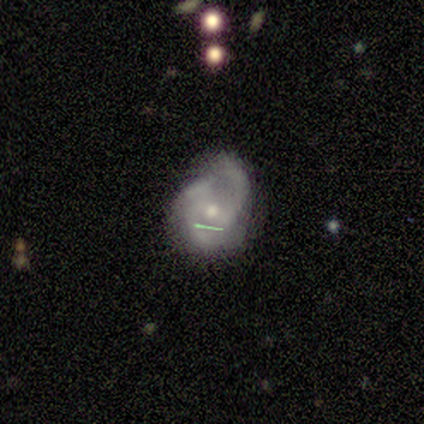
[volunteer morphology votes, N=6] Smooth or featured? featured or disk (50%)
Edge-on disk? no (100%)
Bar? weak (67%)
Spiral arms? yes (100%)
Spiral winding? medium (100%)
Spiral arm count? can't tell (67%)
Bulge size? small (67%)
Merging? minor disturbance (80%)